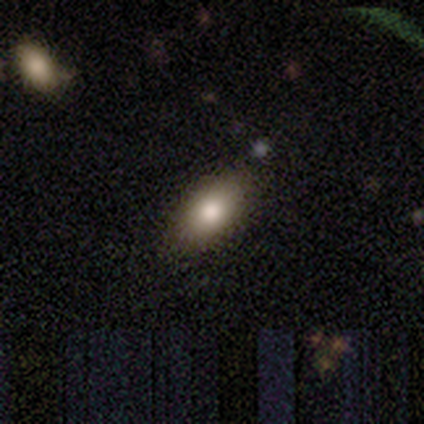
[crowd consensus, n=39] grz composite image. It shows a smooth galaxy with no disk features (62%) that is in between round and cigar-shaped (88%). Merging: none (82%).